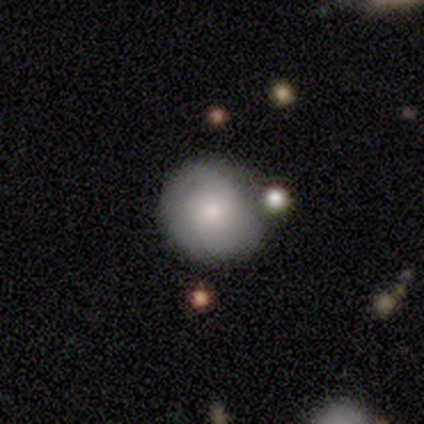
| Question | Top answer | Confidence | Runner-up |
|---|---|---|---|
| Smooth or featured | smooth | 60% | featured or disk (32%) |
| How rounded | round | 96% | in between (4%) |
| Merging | none | 73% | minor disturbance (22%) |